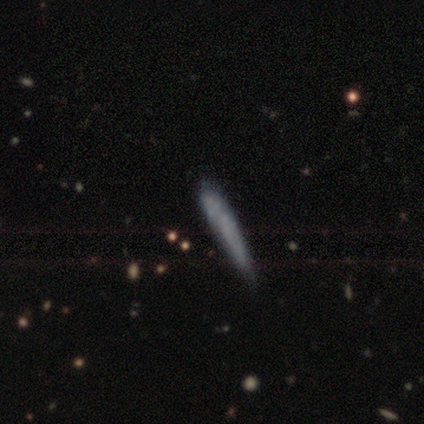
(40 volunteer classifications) Morphology: type=smooth (55%); roundness=cigar-shaped (95%); merging=none (53%).